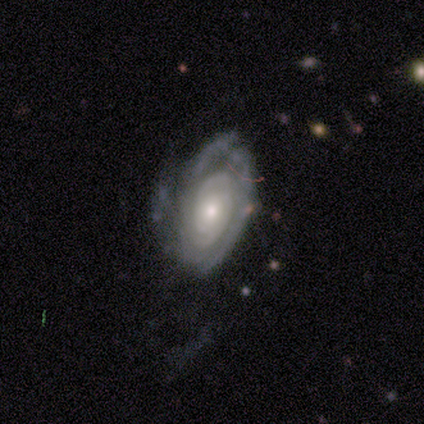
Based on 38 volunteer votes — Smooth or featured: featured or disk — 89% (smooth — 5%)
Edge-on disk: no — 94% (yes — 6%)
Bar: no — 84% (weak — 9%)
Spiral arms: yes — 81% (no — 19%)
Spiral winding: tight — 62% (medium — 19%)
Spiral arm count: can't tell — 50% (2 — 27%)
Bulge size: small — 53% (moderate — 38%)
Merging: none — 53% (minor disturbance — 28%)